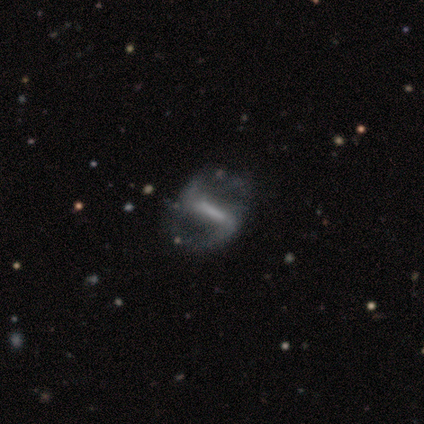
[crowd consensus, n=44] A featured or disk galaxy (93%) with a strong bar (76%), 2 (100%) loose (57%) spiral arms (90%) and no central bulge (51%). Merging: none (40%).